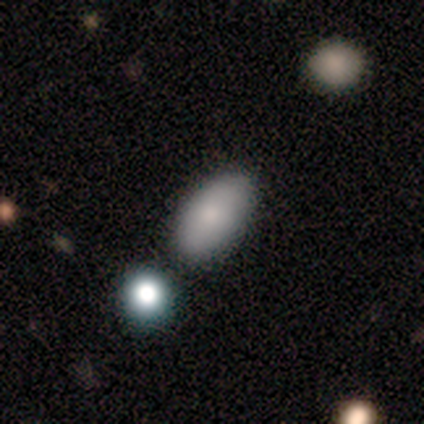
Smooth or featured? smooth (80%)
How rounded? in between (100%)
Merging? none (75%)